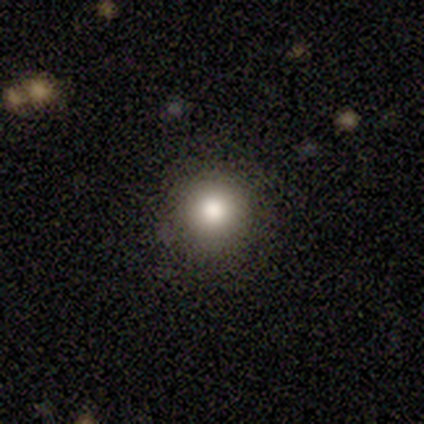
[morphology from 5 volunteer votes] smooth-or-featured: smooth: 60% | star or artifact: 40% | featured or disk: 0%
  how-rounded: round: 100% | in between: 0% | cigar-shaped: 0%
  merging: none: 100% | minor disturbance: 0% | major disturbance: 0% | merger: 0%